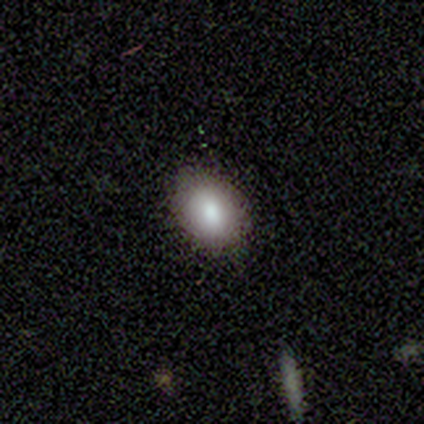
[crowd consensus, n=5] A smooth galaxy with no disk features (60%) that is in between round and cigar-shaped (100%). Merging: none (100%).